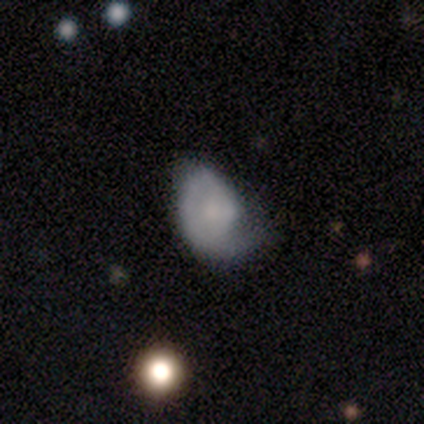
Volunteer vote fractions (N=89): smooth_or_featured: featured or disk (p=0.53) [alt: smooth p=0.40]
disk_edge_on: no (p=0.98) [alt: yes p=0.02]
bar: no (p=0.89) [alt: weak p=0.09]
has_spiral_arms: yes (p=0.76) [alt: no p=0.24]
spiral_winding: tight (p=0.51) [alt: loose p=0.29]
spiral_arm_count: 1 (p=0.80) [alt: can't tell p=0.11]
bulge_size: small (p=0.48) [alt: none p=0.35]
merging: none (p=0.34) [alt: minor disturbance p=0.33]